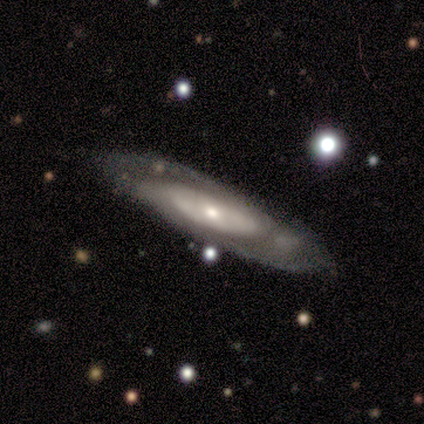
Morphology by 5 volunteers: This is likely a featured or disk galaxy (60%). It is clearly not viewed edge-on (100%). Bar: clearly no (100%). Spiral arm pattern: likely yes (67%). Spiral arm count: possibly 3 (50%, tied with can't tell). Spiral winding: possibly tight (50%, tied with loose). Central bulge: likely moderate (67%). Merging: clearly none (100%).